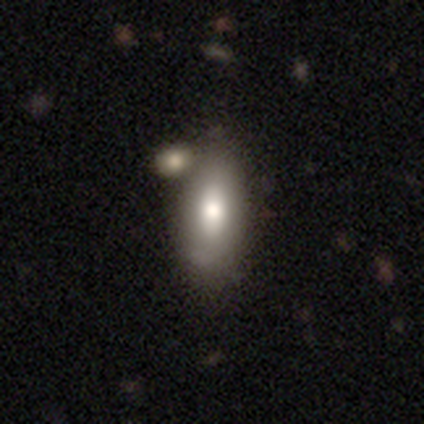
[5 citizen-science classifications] Smooth or featured?
  - star or artifact: 60% *
  - smooth: 20%
  - featured or disk: 20%